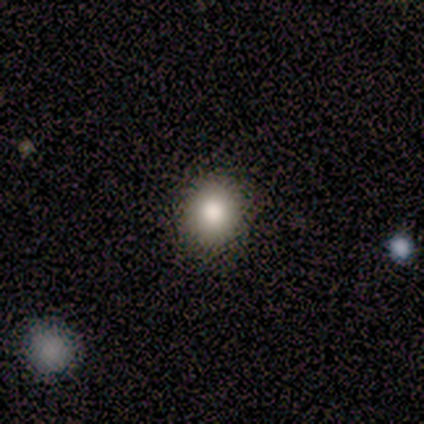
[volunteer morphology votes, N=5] Smooth or featured?
  - smooth: 100% *
  - featured or disk: 0%
  - star or artifact: 0%
How rounded?
  - round: 80% *
  - in between: 20%
  - cigar-shaped: 0%
Merging?
  - none: 100% *
  - minor disturbance: 0%
  - major disturbance: 0%
  - merger: 0%